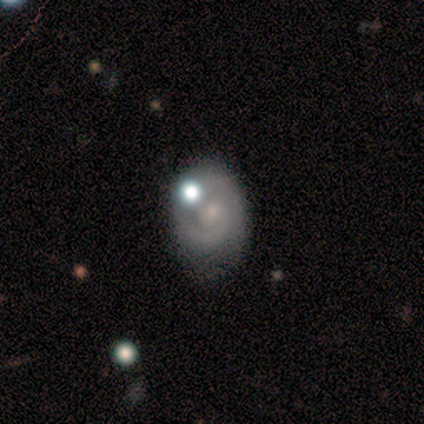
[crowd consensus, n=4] This appears to be a featured or disk galaxy (50%) with a weak bar (50%, tied with no), 1 (50%, tied with can't tell) tight (50%, tied with medium) spiral arms (100%) and a small central bulge (100%). Merging: minor disturbance (100%).